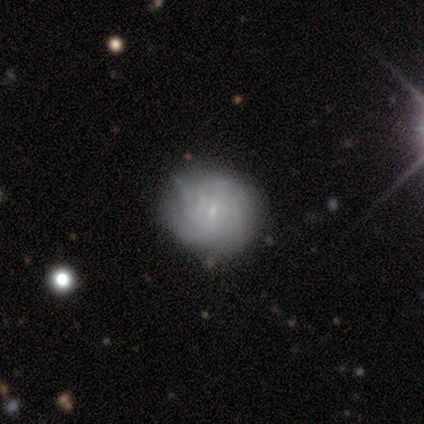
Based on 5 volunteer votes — Smooth or featured? 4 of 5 (80%) said featured or disk. Edge-on disk? 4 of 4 (100%) said no. Bar? 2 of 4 (50%, tied with no) said weak. Spiral arms? 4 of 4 (100%) said yes. Spiral winding? 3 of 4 (75%) said loose. Spiral arm count? 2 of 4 (50%) said can't tell. Bulge size? 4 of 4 (100%) said small. Merging? 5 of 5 (100%) said none.